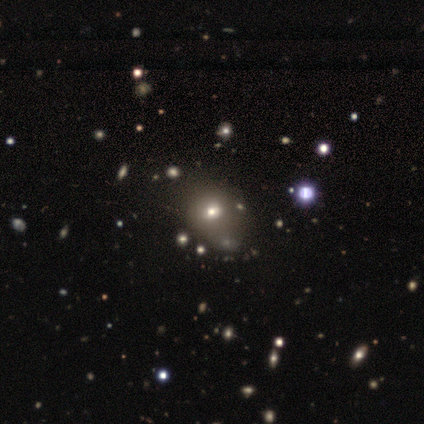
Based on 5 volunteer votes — Smooth or featured?
  - smooth: 40% * (tied)
  - star or artifact: 40% * (tied)
  - featured or disk: 20%
How rounded?
  - round: 50% * (tied)
  - in between: 50% * (tied)
  - cigar-shaped: 0%
Merging?
  - none: 67% *
  - minor disturbance: 33%
  - major disturbance: 0%
  - merger: 0%